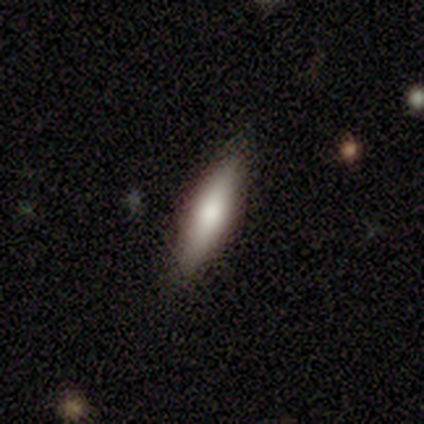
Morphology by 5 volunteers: type=smooth (80%); roundness=cigar-shaped (75%); merging=none (80%).